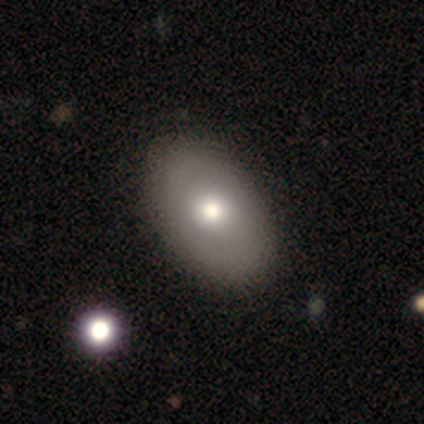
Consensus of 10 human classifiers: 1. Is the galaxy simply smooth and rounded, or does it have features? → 70% smooth, 20% star or artifact, 10% featured or disk.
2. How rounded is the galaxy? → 86% in between, 14% round, 0% cigar-shaped.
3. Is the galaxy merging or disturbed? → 100% none, 0% minor disturbance, 0% major disturbance, 0% merger.